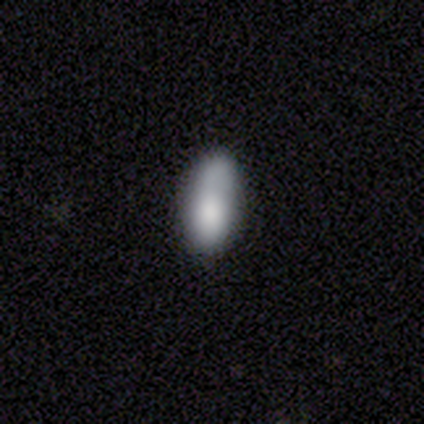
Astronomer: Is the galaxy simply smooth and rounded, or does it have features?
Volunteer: smooth — 80%.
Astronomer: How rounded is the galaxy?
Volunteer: in between — 75%.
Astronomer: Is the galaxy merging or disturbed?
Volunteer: none — 50%, tied with minor disturbance at 50%.